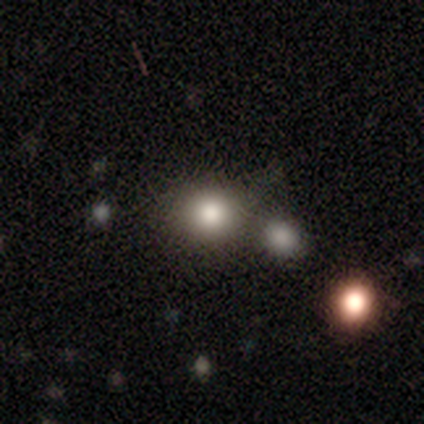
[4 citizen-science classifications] This is clearly a smooth galaxy (100%). How rounded: clearly round (100%). Merging: possibly none (50%, tied with merger).